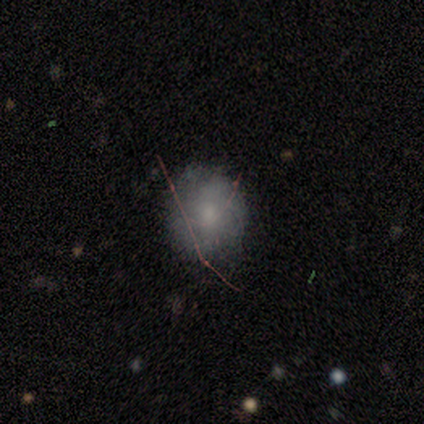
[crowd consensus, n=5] Q: Smooth or featured?
A: smooth (80%); runner-up: featured or disk (20%)
Q: How rounded?
A: round (50%); tied with: in between (50%)
Q: Merging?
A: none (80%); runner-up: minor disturbance (20%)